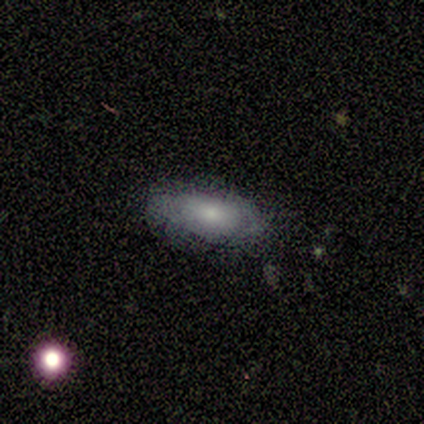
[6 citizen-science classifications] smooth_or_featured: smooth (p=1.00)
how_rounded: in between (p=0.83) [alt: cigar-shaped p=0.17]
merging: none (p=1.00)